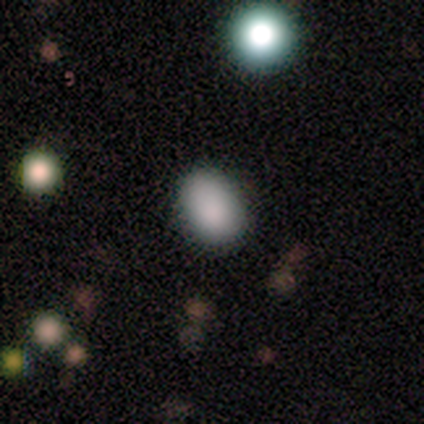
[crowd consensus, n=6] Smooth or featured? smooth (83%)
How rounded? in between (60%)
Merging? none (100%)